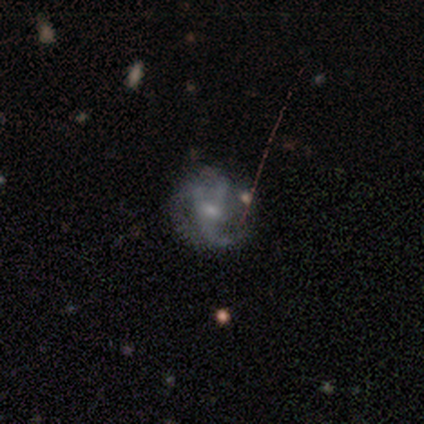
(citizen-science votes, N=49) Smooth or featured?
  - featured or disk: 73% *
  - smooth: 18%
  - star or artifact: 8%
Edge-on disk?
  - no: 94% *
  - yes: 6%
Bar?
  - no: 59% *
  - weak: 32%
  - strong: 9%
Spiral arms?
  - yes: 88% *
  - no: 12%
Spiral winding?
  - loose: 43% *
  - medium: 30%
  - tight: 27%
Spiral arm count?
  - 3: 60% *
  - 2: 23%
  - can't tell: 10%
  - 1: 7%
  - 4: 0%
  - more than 4: 0%
Bulge size?
  - moderate: 47% *
  - small: 41%
  - none: 12%
  - dominant: 0%
  - large: 0%
Merging?
  - none: 60% *
  - minor disturbance: 18%
  - major disturbance: 18%
  - merger: 4%